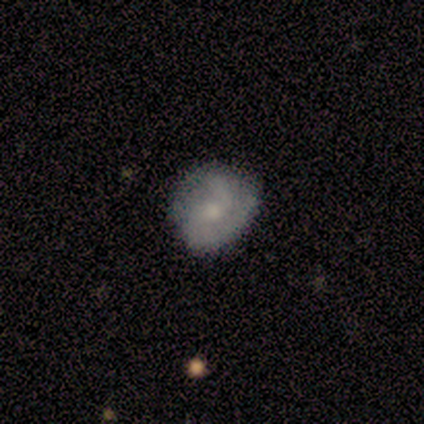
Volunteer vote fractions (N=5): Smooth or featured? 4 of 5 (80%) said featured or disk. Edge-on disk? 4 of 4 (100%) said no. Bar? 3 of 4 (75%) said no. Spiral arms? 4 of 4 (100%) said yes. Spiral winding? 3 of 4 (75%) said medium. Spiral arm count? 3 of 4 (75%) said 2. Bulge size? 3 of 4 (75%) said moderate. Merging? 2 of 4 (50%, tied with minor disturbance) said none.